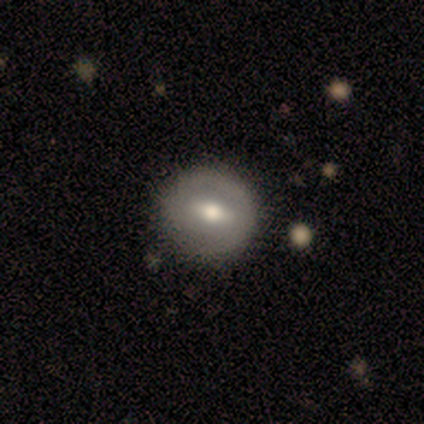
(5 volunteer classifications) This appears to be a smooth galaxy with no disk features (60%) that is round (100%). Merging: none (100%).